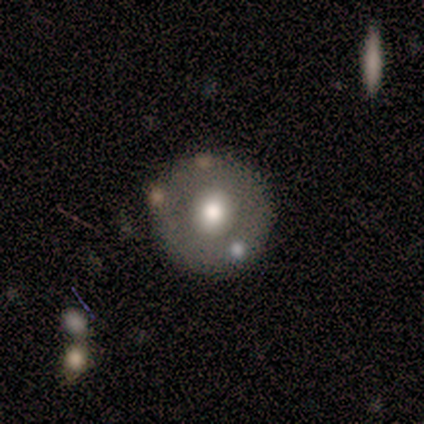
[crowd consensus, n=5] smooth_or_featured: featured or disk (p=0.60) [alt: smooth p=0.40]
disk_edge_on: no (p=1.00)
bar: no (p=1.00)
has_spiral_arms: no (p=1.00)
bulge_size: moderate (p=1.00)
merging: none (p=0.60) [alt: minor disturbance p=0.20]